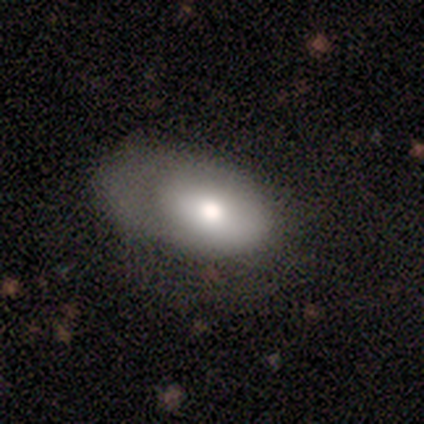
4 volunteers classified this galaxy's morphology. Smooth or featured?
  - featured or disk: 75% *
  - smooth: 25%
  - star or artifact: 0%
Edge-on disk?
  - no: 67% *
  - yes: 33%
Bar?
  - no: 100% *
  - strong: 0%
  - weak: 0%
Spiral arms?
  - yes: 50% * (tied)
  - no: 50% * (tied)
Spiral winding?
  - tight: 100% *
  - medium: 0%
  - loose: 0%
Spiral arm count?
  - 1: 100% *
  - 2: 0%
  - 3: 0%
  - 4: 0%
  - more than 4: 0%
  - can't tell: 0%
Bulge size?
  - moderate: 100% *
  - dominant: 0%
  - large: 0%
  - small: 0%
  - none: 0%
Merging?
  - none: 50% *
  - minor disturbance: 25%
  - major disturbance: 25%
  - merger: 0%